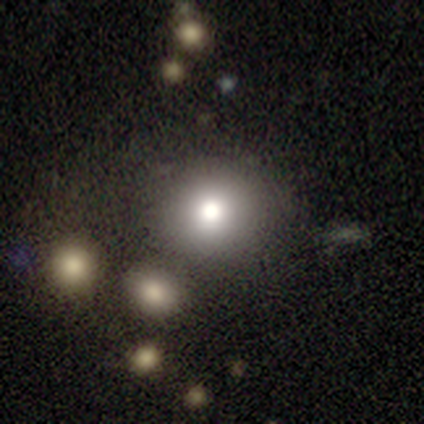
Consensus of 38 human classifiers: smooth-or-featured: smooth: 74% | star or artifact: 18% | featured or disk: 8%
  how-rounded: round: 89% | in between: 7% | cigar-shaped: 4%
  merging: none: 77% | minor disturbance: 13% | major disturbance: 10% | merger: 0%